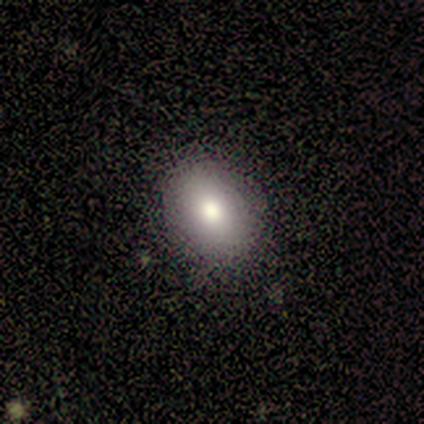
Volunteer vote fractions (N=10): Overall: smooth (60%; featured or disk 20%). How rounded: in between (83%). Merging: none (75%).